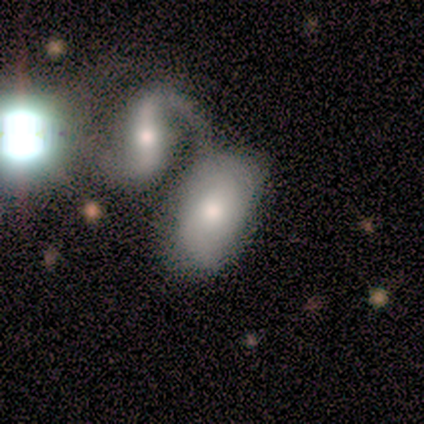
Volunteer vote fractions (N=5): This appears to be a smooth galaxy with no disk features (80%) that is in between round and cigar-shaped (100%). Merging: major disturbance (40%).